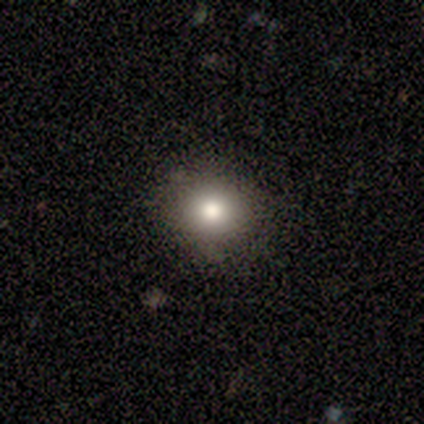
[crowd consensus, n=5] A smooth galaxy with no disk features (100%) that is round (80%). Merging: none (100%).